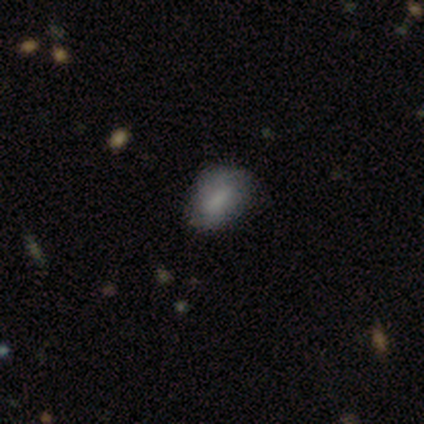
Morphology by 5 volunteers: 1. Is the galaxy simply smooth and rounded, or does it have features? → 80% smooth, 20% star or artifact, 0% featured or disk.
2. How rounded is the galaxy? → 75% in between, 25% round, 0% cigar-shaped.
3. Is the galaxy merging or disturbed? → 75% none, 25% minor disturbance, 0% major disturbance, 0% merger.